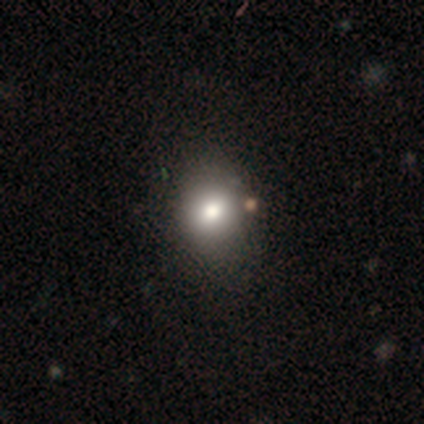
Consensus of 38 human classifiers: A smooth galaxy with no disk features (79%) that is round (70%).

Vote fractions:
- Smooth or featured? smooth: 79% / featured or disk: 16% / star or artifact: 5%
- How rounded? round: 70% / in between: 30% / cigar-shaped: 0%
- Merging? none: 67% / merger: 11% / minor disturbance: 6% / major disturbance: 3%